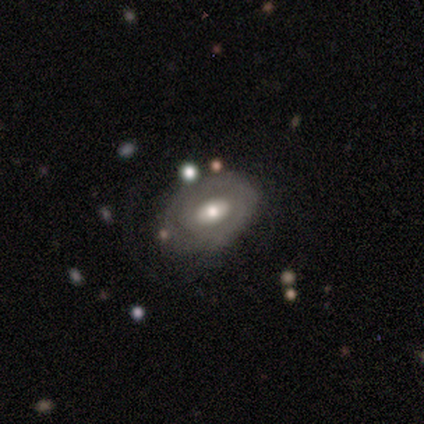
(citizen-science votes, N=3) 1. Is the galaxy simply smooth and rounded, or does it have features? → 100% featured or disk, 0% smooth, 0% star or artifact.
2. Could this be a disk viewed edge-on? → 100% no, 0% yes.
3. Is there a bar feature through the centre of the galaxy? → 67% weak, 33% no, 0% strong.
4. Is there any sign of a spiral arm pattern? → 67% yes, 33% no.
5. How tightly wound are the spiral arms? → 100% tight, 0% medium, 0% loose.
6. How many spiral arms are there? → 50% 1 (tied), 50% 2 (tied), 0% 3, 0% 4, 0% more than 4, 0% can't tell.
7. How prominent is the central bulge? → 67% moderate, 33% small, 0% dominant, 0% large, 0% none.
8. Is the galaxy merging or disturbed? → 100% none, 0% minor disturbance, 0% major disturbance, 0% merger.